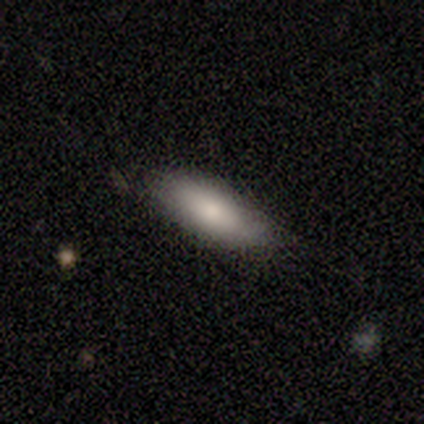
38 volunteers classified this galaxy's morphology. smooth_or_featured: smooth (p=0.79) [alt: featured or disk p=0.16]
how_rounded: in between (p=0.77) [alt: cigar-shaped p=0.23]
merging: none (p=0.72) [alt: minor disturbance p=0.28]